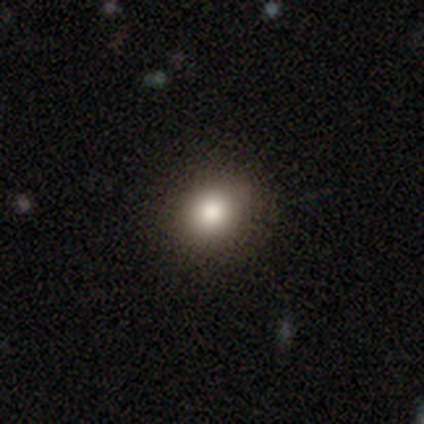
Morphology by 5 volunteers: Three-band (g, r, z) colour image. It shows a smooth galaxy with no disk features (60%) that is round (100%). Merging: none (80%).